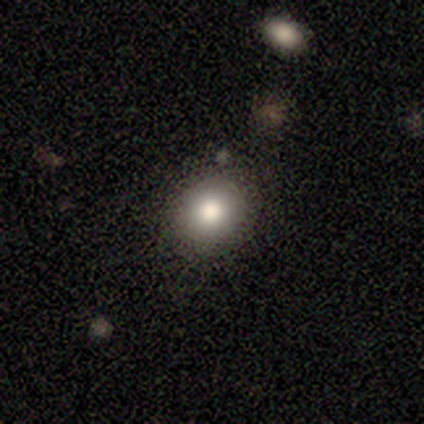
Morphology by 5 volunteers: Overall: smooth (100%). How rounded: round (80%). Merging: none (80%).